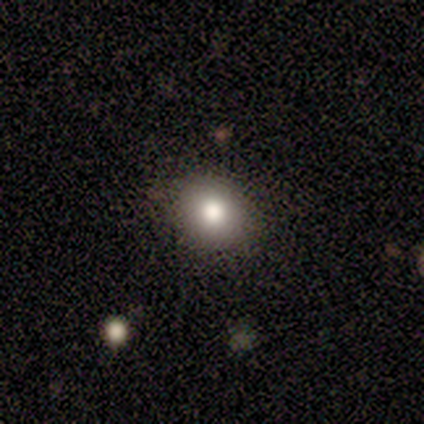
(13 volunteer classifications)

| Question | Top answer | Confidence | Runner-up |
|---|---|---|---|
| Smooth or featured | smooth | 69% | featured or disk (15%) |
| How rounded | round | 89% | in between (11%) |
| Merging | none | 91% | minor disturbance (9%) |